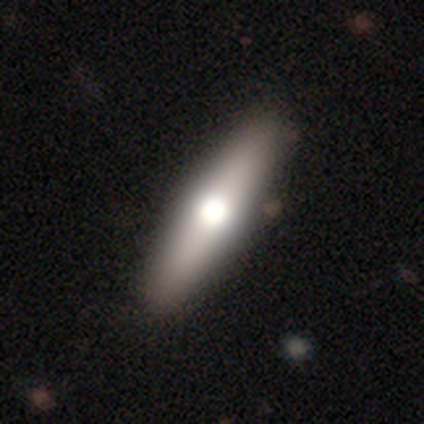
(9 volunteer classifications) Morphology: type=smooth (56%); roundness=cigar-shaped (60%); merging=none (89%).